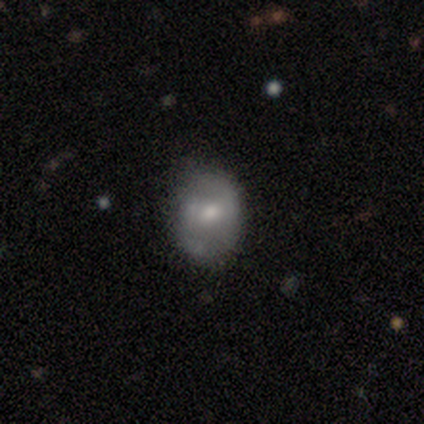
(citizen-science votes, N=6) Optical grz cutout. It shows a smooth galaxy with no disk features (50%, tied with featured or disk) that is in between round and cigar-shaped (100%). Merging: none (83%).